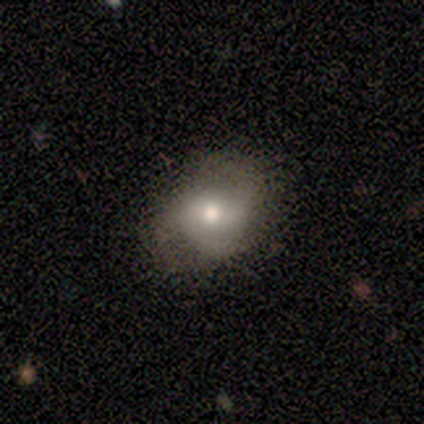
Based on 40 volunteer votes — Morphology: type=smooth (55%); roundness=round (50%, tied with in between); merging=none (45%).